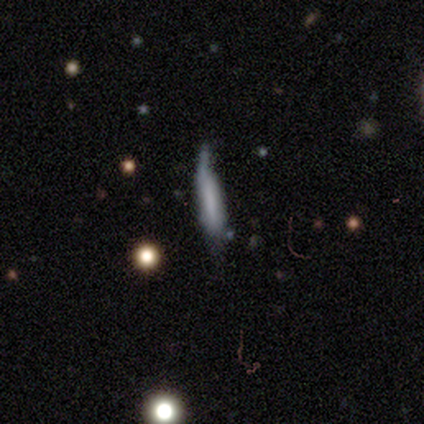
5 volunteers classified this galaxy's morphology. Smooth or featured?
  - smooth: 100% *
  - featured or disk: 0%
  - star or artifact: 0%
How rounded?
  - cigar-shaped: 80% *
  - in between: 20%
  - round: 0%
Merging?
  - major disturbance: 80% *
  - none: 20%
  - minor disturbance: 0%
  - merger: 0%